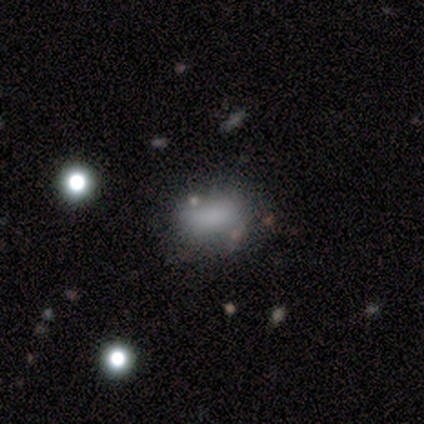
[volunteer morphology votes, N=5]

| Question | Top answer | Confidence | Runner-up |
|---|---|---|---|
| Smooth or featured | smooth | 100% | — |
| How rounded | in between | 100% | — |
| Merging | none | 60% | major disturbance (20%) |